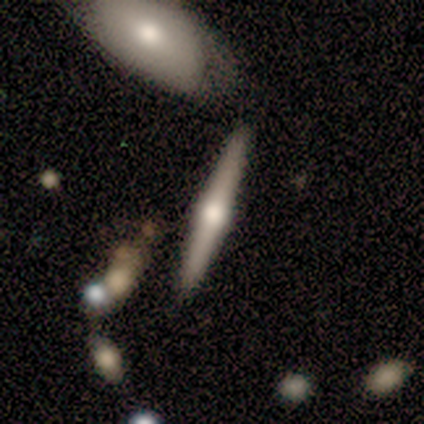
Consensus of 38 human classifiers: Smooth or featured? featured or disk (66%)
Edge-on disk? yes (92%)
Edge-on bulge? rounded (91%)
Merging? none (86%)